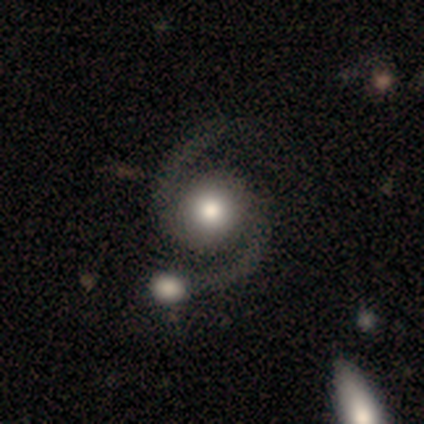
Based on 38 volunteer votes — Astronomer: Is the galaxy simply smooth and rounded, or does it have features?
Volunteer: featured or disk — 97%.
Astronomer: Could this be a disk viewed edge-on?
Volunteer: no — 97%.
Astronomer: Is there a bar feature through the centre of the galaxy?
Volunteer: no — 78%.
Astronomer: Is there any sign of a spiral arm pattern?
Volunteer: yes — 100%.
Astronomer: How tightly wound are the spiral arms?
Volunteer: medium — 61%.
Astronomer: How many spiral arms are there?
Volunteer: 2 — 100%.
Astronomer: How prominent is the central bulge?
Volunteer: moderate — 58%.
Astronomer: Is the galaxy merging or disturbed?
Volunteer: none — 35% (runner-up: merger, 27%).